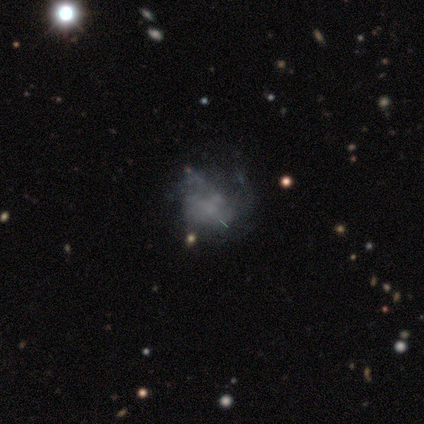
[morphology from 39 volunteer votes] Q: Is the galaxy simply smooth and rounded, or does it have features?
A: featured or disk — 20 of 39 (51%).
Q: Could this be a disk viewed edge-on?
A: no — 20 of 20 (100%).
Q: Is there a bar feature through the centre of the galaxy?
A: no — 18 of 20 (90%).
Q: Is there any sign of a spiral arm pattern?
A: no — 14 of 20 (70%).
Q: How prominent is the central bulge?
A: none — 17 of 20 (85%).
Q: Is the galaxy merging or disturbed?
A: none — 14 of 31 (45%).